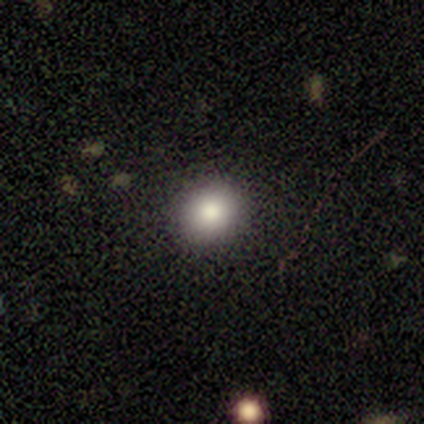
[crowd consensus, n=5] smooth_or_featured: smooth (p=1.00)
how_rounded: round (p=0.60) [alt: in between p=0.40]
merging: none (p=1.00)